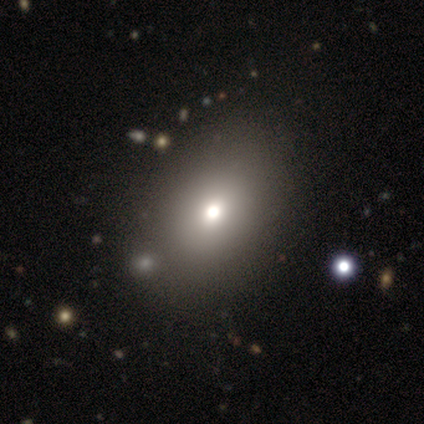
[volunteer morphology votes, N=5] This is clearly a smooth galaxy (80%). How rounded: clearly in between (100%). Merging: marginally none (40%, tied with merger).